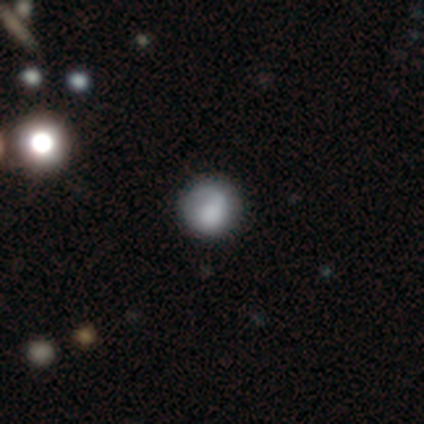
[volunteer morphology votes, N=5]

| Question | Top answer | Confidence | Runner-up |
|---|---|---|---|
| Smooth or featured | smooth | 80% | star or artifact (20%) |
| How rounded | round | 100% | — |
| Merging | none | 100% | — |